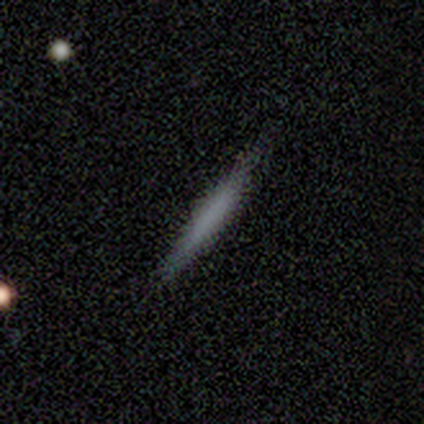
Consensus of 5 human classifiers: smooth 100%, featured or disk 0%, star or artifact 0%. Down the decision tree: how rounded — cigar-shaped (100%); merging — none (100%).